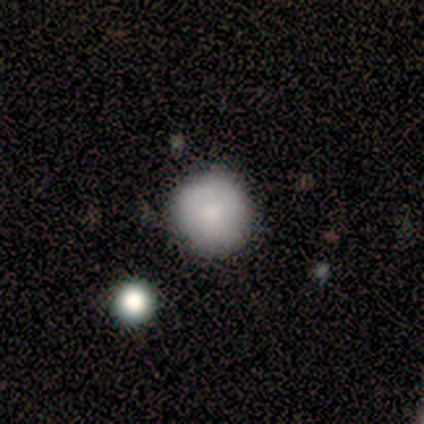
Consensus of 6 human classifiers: Q: Smooth or featured?
A: smooth (100%)
Q: How rounded?
A: round (100%)
Q: Merging?
A: none (83%); runner-up: minor disturbance (17%)